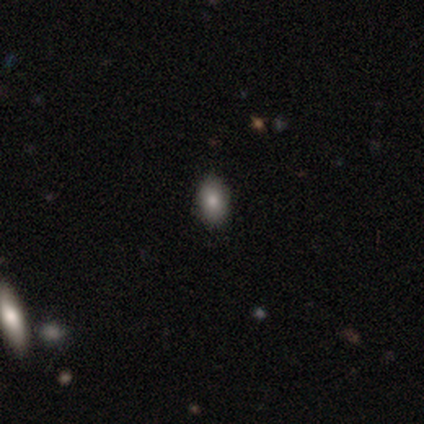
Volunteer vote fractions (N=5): Overall: smooth (80%). How rounded: in between (100%). Merging: none (75%).